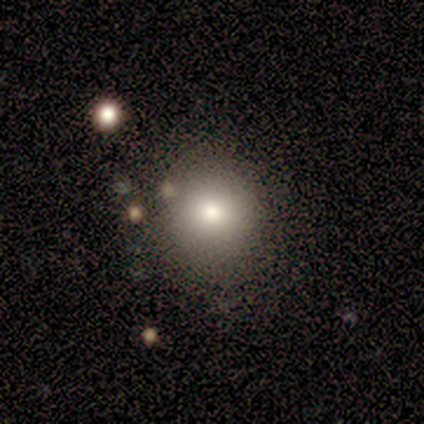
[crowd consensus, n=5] Morphology: type=smooth (100%); roundness=round (100%); merging=none (80%).